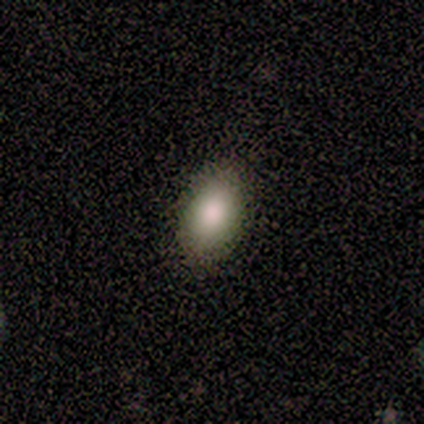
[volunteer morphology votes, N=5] A smooth galaxy with no disk features (100%) that is in between round and cigar-shaped (100%). Merging: none (100%).